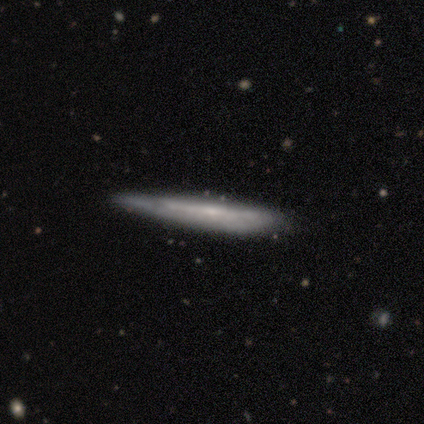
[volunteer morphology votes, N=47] This appears to be a featured or disk galaxy (64%) viewed edge-on (80%) with no central bulge (58%). Merging: none (67%).